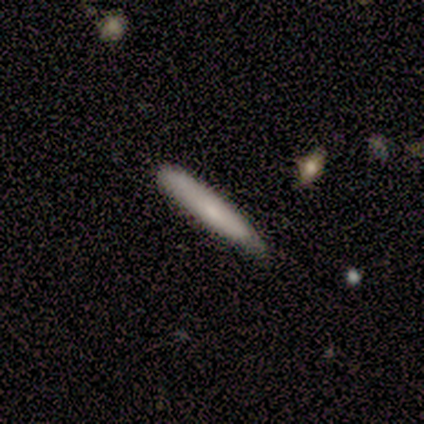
smooth 100%, featured or disk 0%, star or artifact 0%. Down the decision tree: how rounded — cigar-shaped (100%); merging — none (60%).